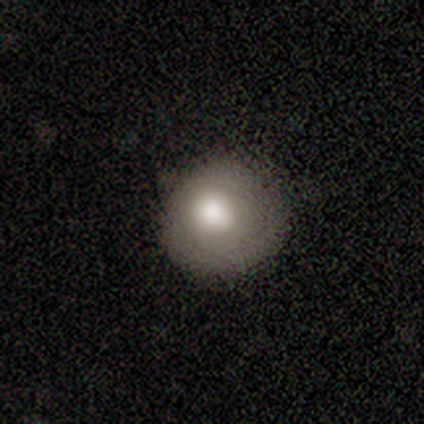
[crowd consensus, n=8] Smooth or featured?
  - smooth: 75% *
  - featured or disk: 25%
  - star or artifact: 0%
How rounded?
  - round: 67% *
  - in between: 33%
  - cigar-shaped: 0%
Merging?
  - none: 50% *
  - minor disturbance: 25%
  - major disturbance: 25%
  - merger: 0%